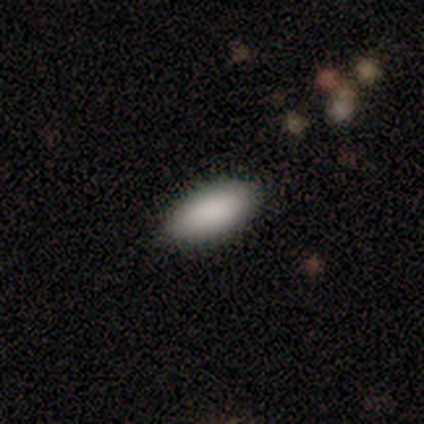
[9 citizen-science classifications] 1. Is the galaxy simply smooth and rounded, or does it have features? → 100% smooth, 0% featured or disk, 0% star or artifact.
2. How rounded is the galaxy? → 100% in between, 0% round, 0% cigar-shaped.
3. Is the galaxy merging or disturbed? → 100% none, 0% minor disturbance, 0% major disturbance, 0% merger.